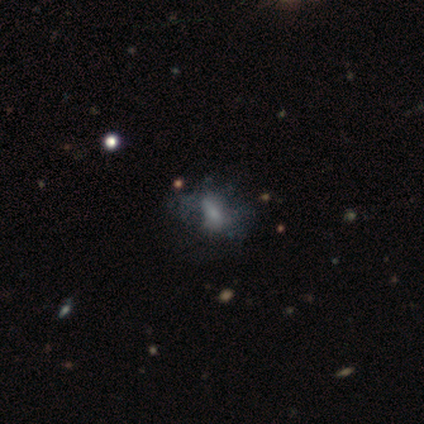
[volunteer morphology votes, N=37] A featured or disk galaxy (41%) with no bar (57%), no spiral arms (93%) and a moderate central bulge (43%).

Vote fractions:
- Smooth or featured? featured or disk: 41% / smooth: 30% / star or artifact: 30%
- Edge-on disk? no: 93% / yes: 7%
- Bar? no: 57% / weak: 29% / strong: 14%
- Spiral arms? no: 93% / yes: 7%
- Bulge size? moderate: 43% / small: 29% / large: 14% / none: 14% / dominant: 0%
- Merging? major disturbance: 46% / none: 38% / minor disturbance: 15% / merger: 0%